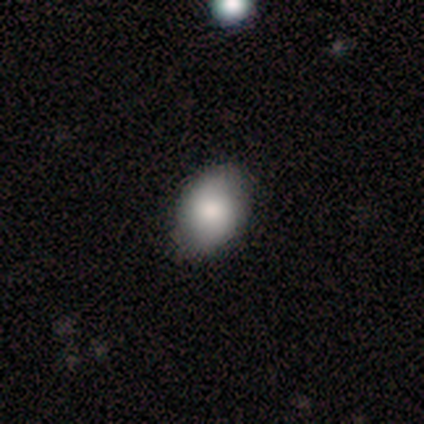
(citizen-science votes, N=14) This is likely a smooth galaxy (64%). How rounded: clearly in between (100%). Merging: clearly none (86%).